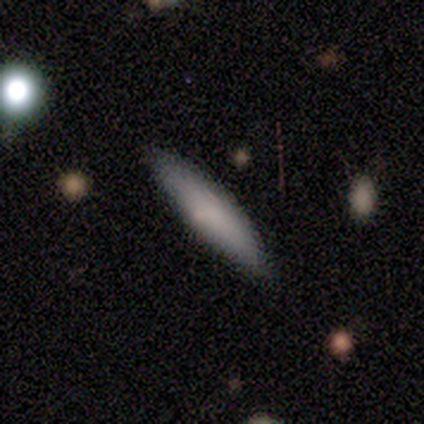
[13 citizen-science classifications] Volunteers were most divided on "how rounded": cigar-shaped: 92%, in between: 8%, round: 0%. More confident: merging — none (100%); smooth or featured — smooth (92%).